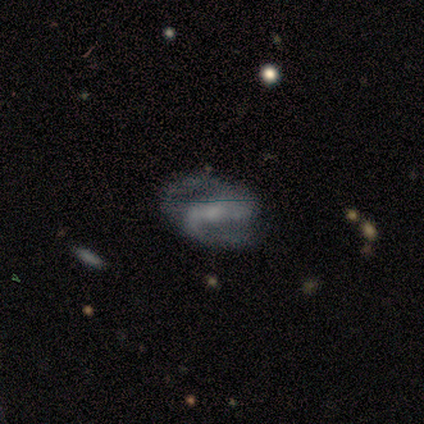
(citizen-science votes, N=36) A featured or disk galaxy (83%) with a weak bar (44%), 2 (88%) medium (50%) spiral arms (89%) and a small central bulge (59%). Merging: none (63%).